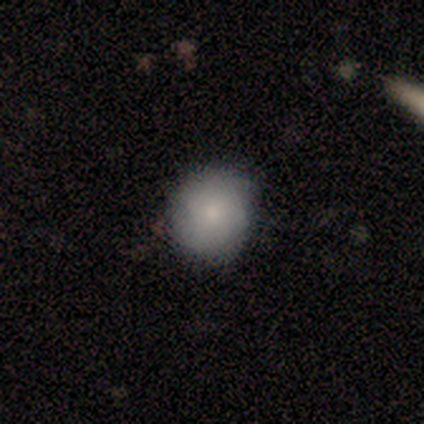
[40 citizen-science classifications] Overall: smooth (70%). How rounded: round (79%). Merging: none (77%).